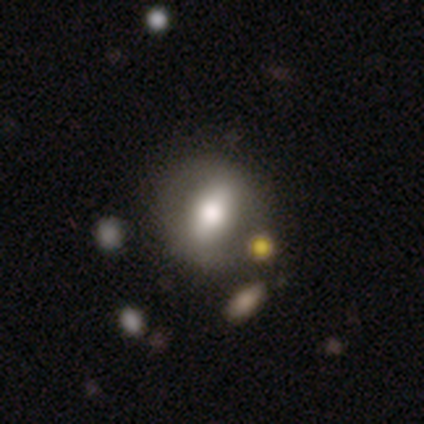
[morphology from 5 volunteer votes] smooth_or_featured: featured or disk (p=0.60) [alt: smooth p=0.40]
disk_edge_on: no (p=1.00)
bar: strong (p=0.67) [alt: weak p=0.33]
has_spiral_arms: no (p=0.67) [alt: yes p=0.33]
bulge_size: large (p=0.67) [alt: moderate p=0.33]
merging: none (p=0.60) [alt: minor disturbance p=0.20]